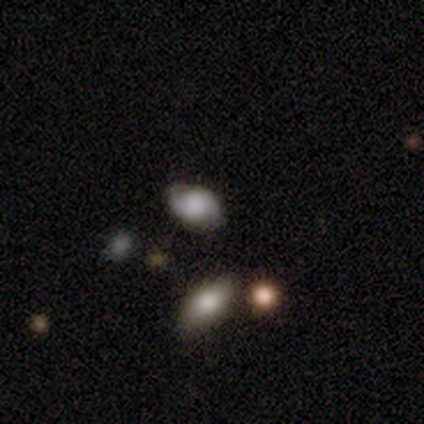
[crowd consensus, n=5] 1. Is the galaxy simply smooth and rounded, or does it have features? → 60% smooth, 40% featured or disk, 0% star or artifact.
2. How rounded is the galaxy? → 100% in between, 0% round, 0% cigar-shaped.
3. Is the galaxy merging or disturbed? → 80% none, 20% merger, 0% minor disturbance, 0% major disturbance.